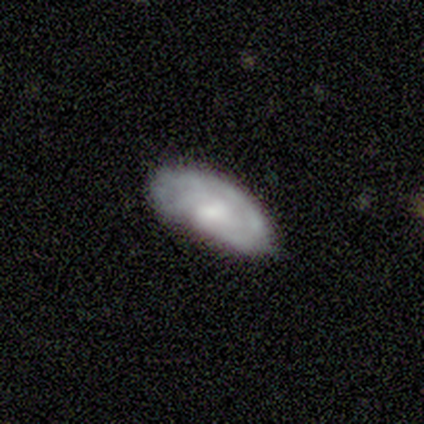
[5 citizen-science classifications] Q: Smooth or featured?
A: featured or disk (60%); runner-up: smooth (40%)
Q: Edge-on disk?
A: no (100%)
Q: Bar?
A: weak (67%); runner-up: strong (33%)
Q: Spiral arms?
A: yes (100%)
Q: Spiral winding?
A: tight (33%); tied with: medium (33%); loose (33%)
Q: Spiral arm count?
A: 2 (67%); runner-up: can't tell (33%)
Q: Bulge size?
A: small (100%)
Q: Merging?
A: none (40%); tied with: major disturbance (40%)